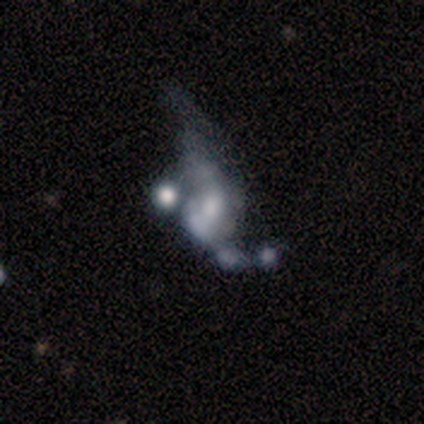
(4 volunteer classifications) This appears to be a featured or disk galaxy (75%) with no bar (67%), no spiral arms (67%) and a large central bulge (67%). Merging: major disturbance (50%, tied with merger).